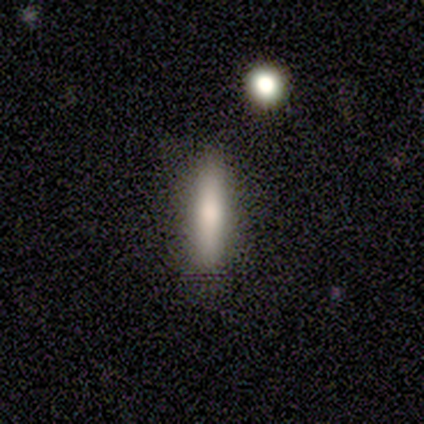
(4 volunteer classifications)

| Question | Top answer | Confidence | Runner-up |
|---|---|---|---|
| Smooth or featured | smooth | 75% | star or artifact (25%) |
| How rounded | cigar-shaped | 100% | — |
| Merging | none | 100% | — |